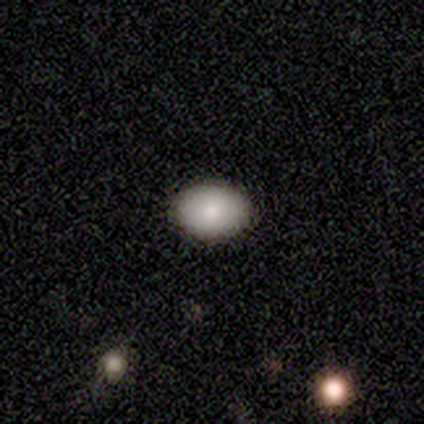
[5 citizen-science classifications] This appears to be a smooth galaxy with no disk features (80%) that is in between round and cigar-shaped (100%). Merging: none (100%).